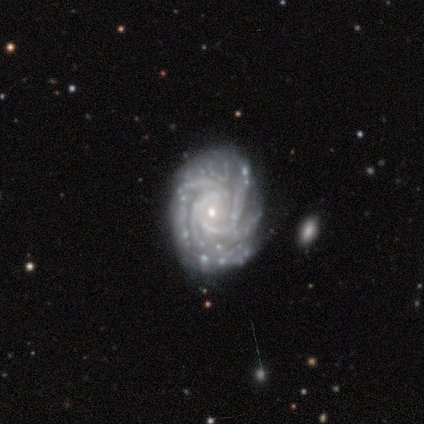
Morphology: type=featured or disk (100%); edge-on=no (100%); bar=no (80%); spiral arms=yes (100%); winding=tight (80%); arm count=3 (60%); bulge=small (100%); merging=none (60%).